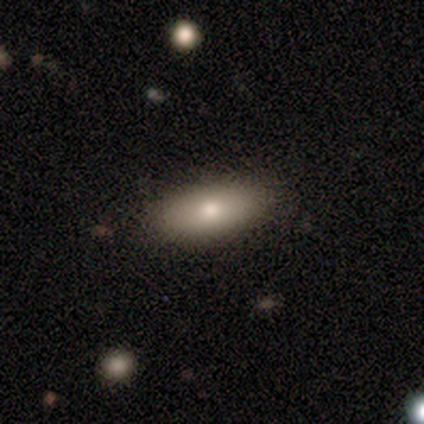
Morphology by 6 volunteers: Volunteers were most divided on "smooth or featured": featured or disk: 67%, smooth: 33%, star or artifact: 0%. More confident: edge-on bulge — rounded (100%); merging — none (83%); edge-on disk — yes (75%).